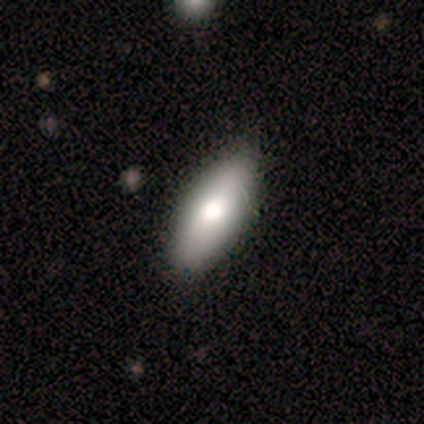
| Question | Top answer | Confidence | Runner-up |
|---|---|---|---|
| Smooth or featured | smooth | 76% | featured or disk (21%) |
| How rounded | in between | 86% | cigar-shaped (10%) |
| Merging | none | 49% | minor disturbance (14%) |